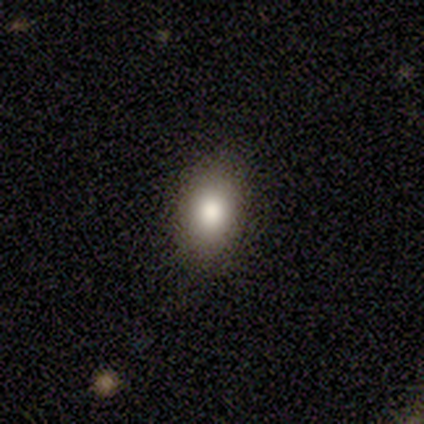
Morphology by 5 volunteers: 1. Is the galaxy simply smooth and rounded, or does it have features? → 100% smooth, 0% featured or disk, 0% star or artifact.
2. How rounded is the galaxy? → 80% in between, 20% cigar-shaped, 0% round.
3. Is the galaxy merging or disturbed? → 100% none, 0% minor disturbance, 0% major disturbance, 0% merger.